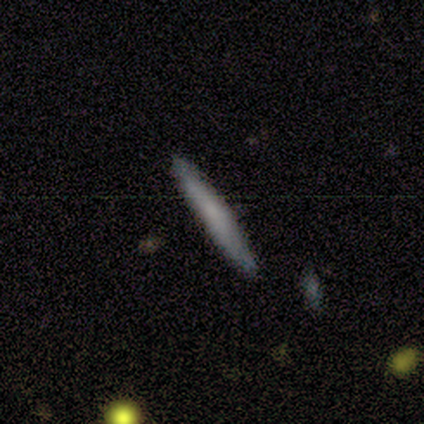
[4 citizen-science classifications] Overall: smooth (75%). How rounded: cigar-shaped (100%). Merging: none (100%).